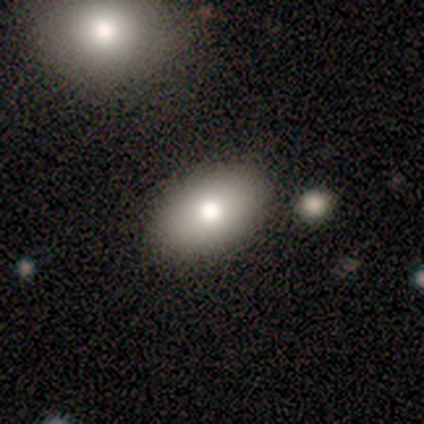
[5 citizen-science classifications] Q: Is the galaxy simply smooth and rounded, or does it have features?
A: smooth — 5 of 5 (100%).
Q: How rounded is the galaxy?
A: in between — 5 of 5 (100%).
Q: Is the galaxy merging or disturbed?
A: none — 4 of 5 (80%).